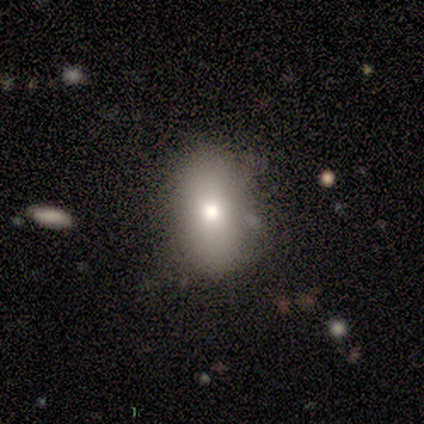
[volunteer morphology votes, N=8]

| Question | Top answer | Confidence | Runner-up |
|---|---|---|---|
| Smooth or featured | smooth | 75% | featured or disk (12%) |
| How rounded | in between | 83% | round (17%) |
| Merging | none | 100% | — |